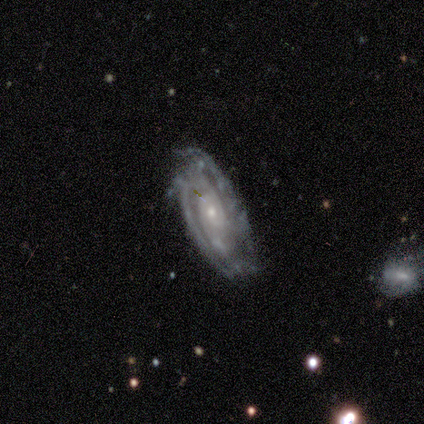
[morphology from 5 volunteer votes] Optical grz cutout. It shows a featured or disk galaxy (80%) with no bar (100%), 2 (50%) medium (75%) spiral arms (100%) and a small central bulge (75%). Merging: none (40%, tied with minor disturbance).